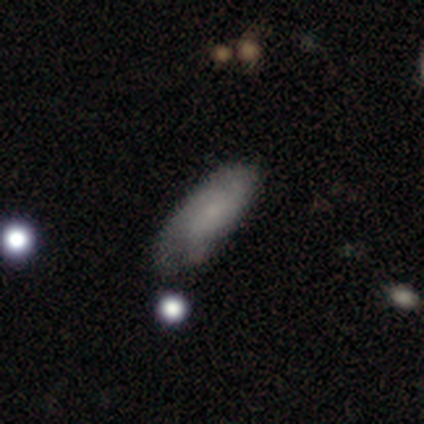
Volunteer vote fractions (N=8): A smooth galaxy with no disk features (50%) that is in between round and cigar-shaped (75%). Merging: minor disturbance (71%).